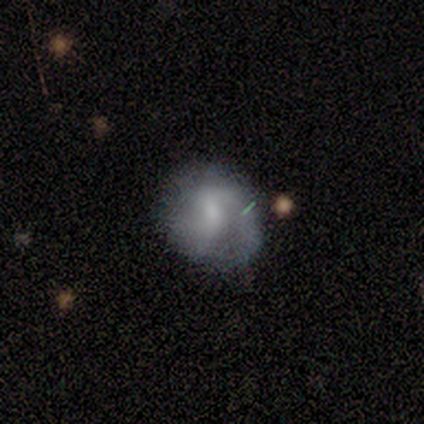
Smooth or featured: featured or disk — 67% (smooth — 33%)
Edge-on disk: no — 100%
Bar: weak — 50% (tied with no — 50%)
Spiral arms: yes — 100%
Spiral winding: medium — 100%
Spiral arm count: 1 — 50% (tied with 2 — 50%)
Bulge size: small — 100%
Merging: none — 67% (merger — 33%)